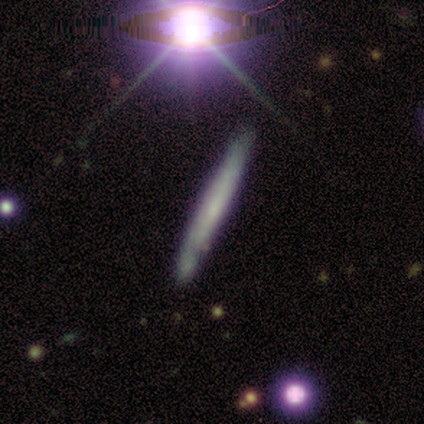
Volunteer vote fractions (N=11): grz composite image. It shows a featured or disk galaxy (64%) viewed edge-on (100%) with no central bulge (86%). Merging: none (82%).